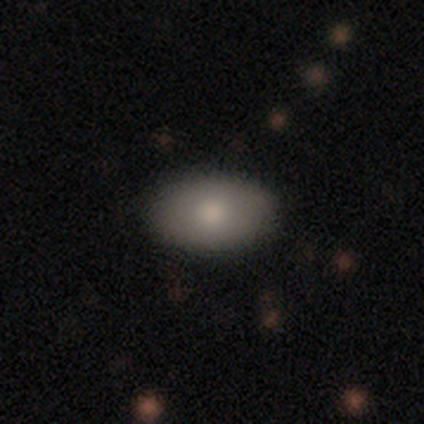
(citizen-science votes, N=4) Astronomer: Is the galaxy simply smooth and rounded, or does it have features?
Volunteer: smooth — 100%.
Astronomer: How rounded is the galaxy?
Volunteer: in between — 100%.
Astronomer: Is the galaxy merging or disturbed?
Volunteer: none — 50%, tied with minor disturbance at 50%.